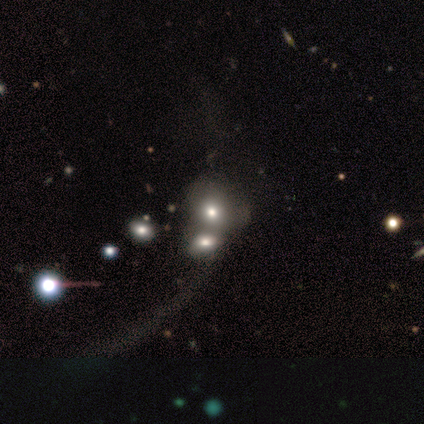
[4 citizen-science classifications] smooth-or-featured: smooth: 75% | featured or disk: 25% | star or artifact: 0%
  how-rounded: in between: 67% | round: 33% | cigar-shaped: 0%
  merging: major disturbance: 50% | none: 25% | merger: 25% | minor disturbance: 0%